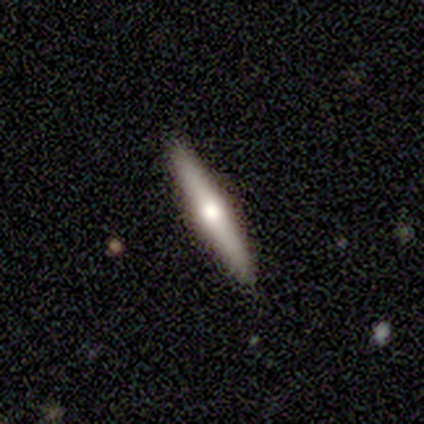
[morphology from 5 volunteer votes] Smooth or featured: featured or disk — 100%
Edge-on disk: yes — 100%
Edge-on bulge: rounded — 80% (none — 20%)
Merging: none — 80% (minor disturbance — 20%)